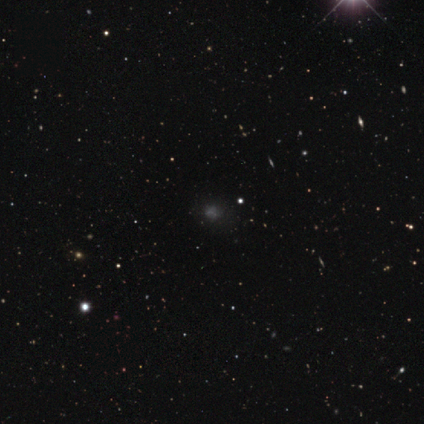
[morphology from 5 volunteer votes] type=star or artifact (60%).